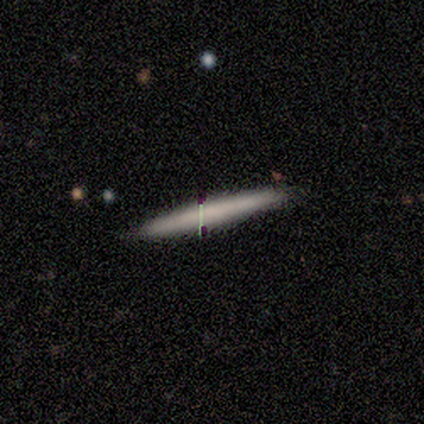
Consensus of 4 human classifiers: Morphology: type=smooth (100%); roundness=cigar-shaped (100%); merging=none (100%).